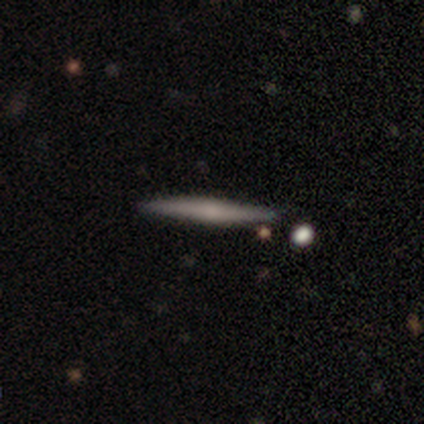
featured or disk 60%, smooth 40%, star or artifact 0%. Down the decision tree: edge-on disk — yes (100%); edge-on bulge — rounded (100%); merging — none (100%).